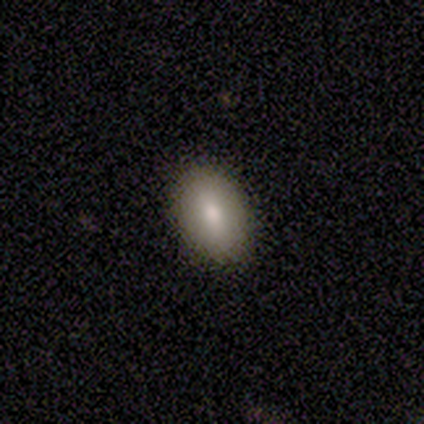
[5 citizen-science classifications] smooth-or-featured: smooth: 100% | featured or disk: 0% | star or artifact: 0%
  how-rounded: in between: 100% | round: 0% | cigar-shaped: 0%
  merging: none: 60% | minor disturbance: 40% | major disturbance: 0% | merger: 0%